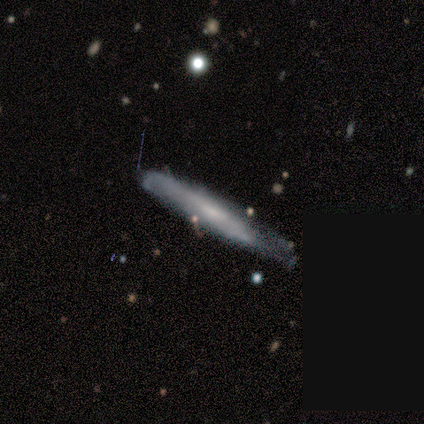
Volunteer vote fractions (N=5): Smooth or featured?
  - featured or disk: 80% *
  - smooth: 20%
  - star or artifact: 0%
Edge-on disk?
  - yes: 75% *
  - no: 25%
Edge-on bulge?
  - none: 67% *
  - rounded: 33%
  - boxy: 0%
Merging?
  - none: 40% * (tied)
  - minor disturbance: 40% * (tied)
  - major disturbance: 20%
  - merger: 0%